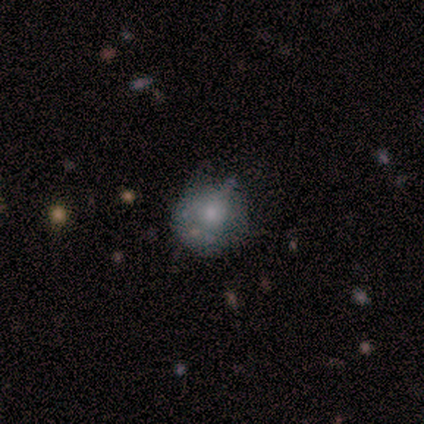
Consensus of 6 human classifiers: smooth-or-featured: smooth: 67% | featured or disk: 33% | star or artifact: 0%
  how-rounded: round: 100% | in between: 0% | cigar-shaped: 0%
  merging: none: 50% | minor disturbance: 17% | major disturbance: 17% | merger: 17%